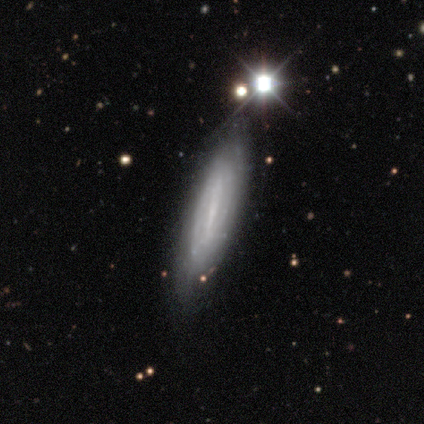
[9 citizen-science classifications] Morphology: type=featured or disk (67%); edge-on=no (83%); bar=strong (40%, tied with weak); spiral arms=yes (80%); winding=tight (50%); arm count=2 (50%); bulge=small (60%); merging=none (100%).